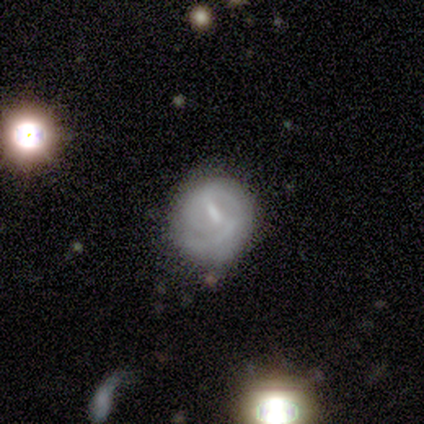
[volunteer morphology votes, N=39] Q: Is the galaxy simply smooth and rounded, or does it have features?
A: featured or disk — 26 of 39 (67%).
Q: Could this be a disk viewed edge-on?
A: no — 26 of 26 (100%).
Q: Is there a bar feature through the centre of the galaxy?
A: weak — 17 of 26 (65%).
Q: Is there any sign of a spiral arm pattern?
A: yes — 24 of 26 (92%).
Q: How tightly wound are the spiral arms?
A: tight — 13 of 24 (54%).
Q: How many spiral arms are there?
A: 2 — 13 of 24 (54%).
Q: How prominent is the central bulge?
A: small — 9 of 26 (35%, tied with none).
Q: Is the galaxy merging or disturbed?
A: none — 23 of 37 (62%).